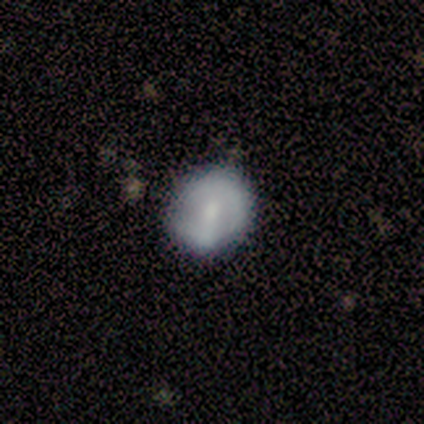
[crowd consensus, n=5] Smooth or featured: smooth — 100%
How rounded: round — 60% (in between — 40%)
Merging: none — 80% (minor disturbance — 20%)